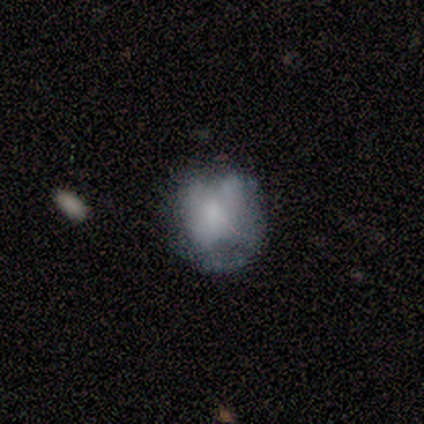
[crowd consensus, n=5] Smooth or featured: smooth — 60% (featured or disk — 40%)
How rounded: round — 67% (in between — 33%)
Merging: minor disturbance — 60% (none — 40%)